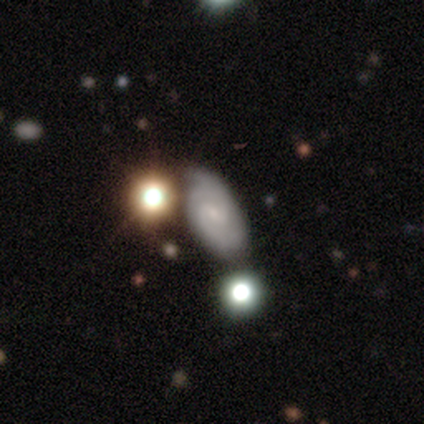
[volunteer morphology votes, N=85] featured or disk 60%, smooth 21%, star or artifact 19%. Down the decision tree: edge-on disk — no (98%); bar — weak (54%); spiral arms — yes (90%); spiral arm count — 2 (80%); spiral winding — medium (47%); bulge size — small (80%); merging — none (52%).